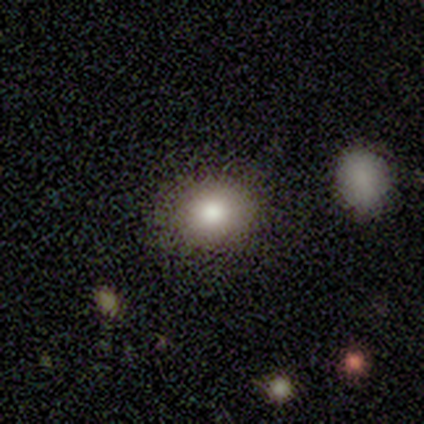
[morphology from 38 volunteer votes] This appears to be a smooth galaxy with no disk features (66%) that is round (80%). Merging: none (93%).